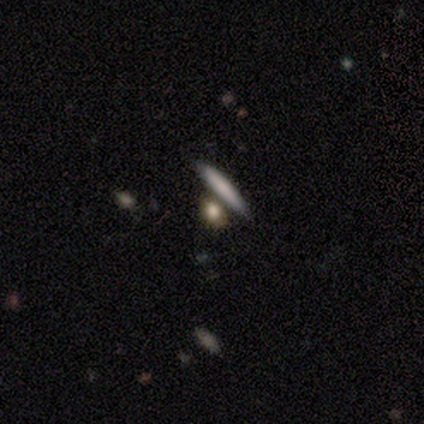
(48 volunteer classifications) Smooth or featured? smooth (81%)
How rounded? cigar-shaped (41%)
Merging? none (67%)